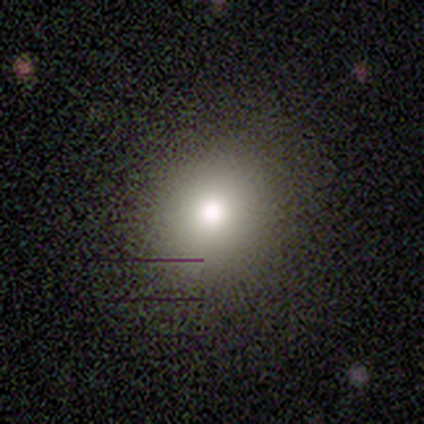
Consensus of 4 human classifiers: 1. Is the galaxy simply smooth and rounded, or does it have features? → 75% smooth, 25% featured or disk, 0% star or artifact.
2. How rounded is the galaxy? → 67% round, 33% in between, 0% cigar-shaped.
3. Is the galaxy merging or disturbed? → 75% none, 25% merger, 0% minor disturbance, 0% major disturbance.